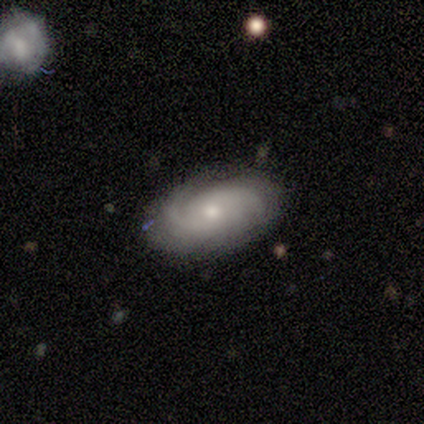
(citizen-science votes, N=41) smooth_or_featured: featured or disk (p=0.83) [alt: smooth p=0.12]
disk_edge_on: no (p=0.91) [alt: yes p=0.09]
bar: no (p=0.77) [alt: weak p=0.19]
has_spiral_arms: yes (p=0.97) [alt: no p=0.03]
spiral_winding: tight (p=0.60) [alt: medium p=0.30]
spiral_arm_count: 2 (p=0.63) [alt: 3 p=0.17]
bulge_size: moderate (p=0.48) [tied with: small p=0.48]
merging: none (p=0.85) [alt: minor disturbance p=0.13]